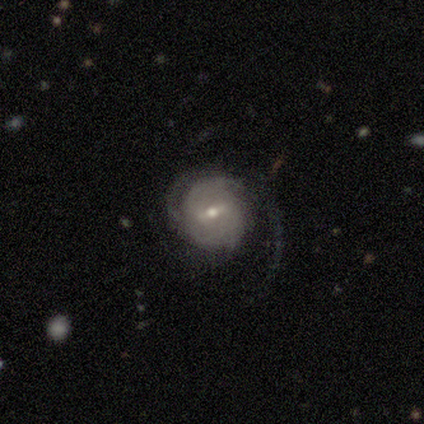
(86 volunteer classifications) Volunteers were most divided on "spiral arm count" (2-way tie): 2: 32%, can't tell: 32%, 3: 17%, 1: 14%, more than 4: 4%, 4: 0%. Remaining: edge-on disk — no (97%); spiral arms — yes (96%); smooth or featured — featured or disk (86%); merging — none (60%); bar — weak (57%); bulge size — small (56%); spiral winding — tight (45%).